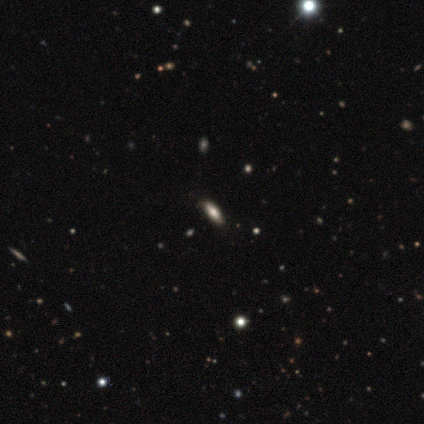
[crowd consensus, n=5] This is clearly a smooth galaxy (100%). How rounded: clearly cigar-shaped (80%). Merging: clearly none (100%).